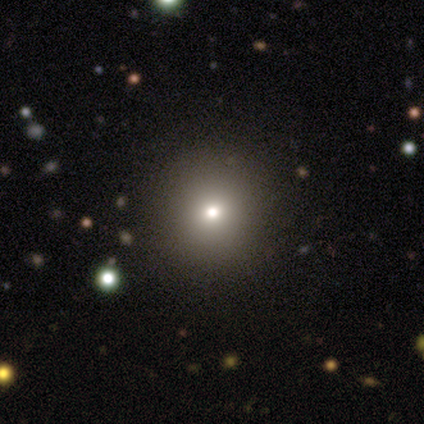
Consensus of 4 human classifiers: Volunteers were most divided on "spiral arms" (2-way tie): yes: 50%, no: 50%; "bulge size" (2-way tie): moderate: 50%, small: 50%, dominant: 0%, large: 0%, none: 0%. More confident: edge-on disk — no (100%); bar — no (100%); spiral winding — tight (100%); spiral arm count — 4 (100%); merging — none (100%); smooth or featured — featured or disk (50%).